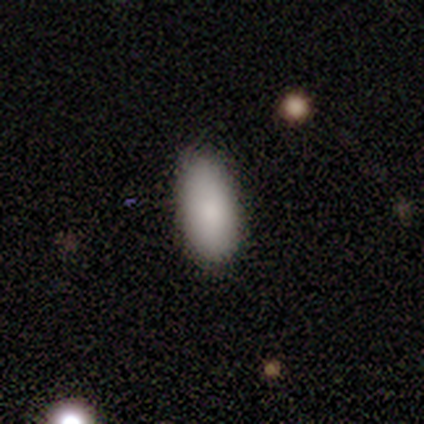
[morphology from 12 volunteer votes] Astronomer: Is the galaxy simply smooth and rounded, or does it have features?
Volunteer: smooth — 75%.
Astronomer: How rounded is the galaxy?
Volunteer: in between — 78%.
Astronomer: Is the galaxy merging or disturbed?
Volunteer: none — 91%.